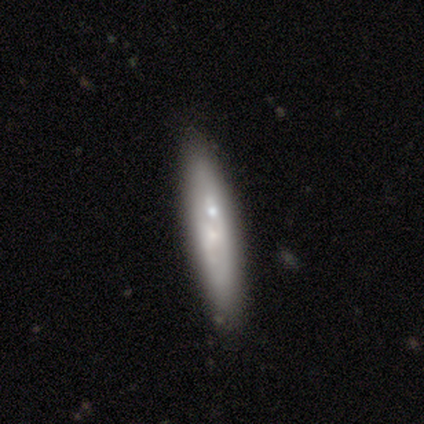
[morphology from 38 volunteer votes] Volunteers were most divided on "edge-on disk": no: 52%, yes: 48%. More confident: bar — no (91%); spiral arms — no (82%); bulge size — small (73%); smooth or featured — featured or disk (55%); merging — none (53%).